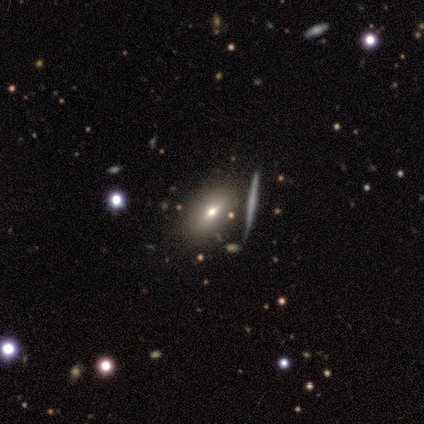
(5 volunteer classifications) This appears to be a smooth galaxy with no disk features (60%) that is in between round and cigar-shaped (100%). Merging: none (80%).